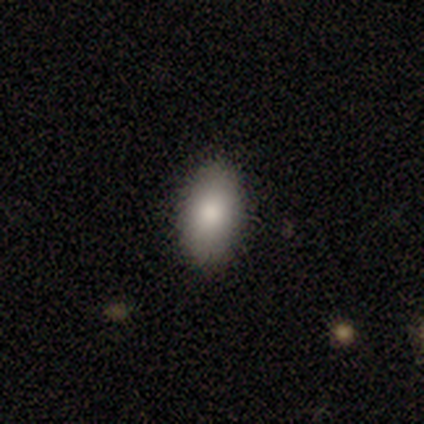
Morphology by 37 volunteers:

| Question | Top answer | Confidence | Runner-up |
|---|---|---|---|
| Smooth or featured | smooth | 84% | featured or disk (8%) |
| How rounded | in between | 100% | — |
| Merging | none | 88% | minor disturbance (9%) |